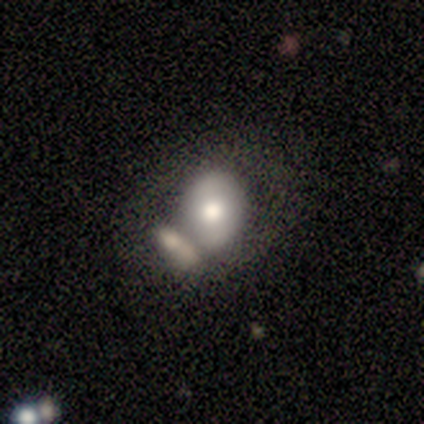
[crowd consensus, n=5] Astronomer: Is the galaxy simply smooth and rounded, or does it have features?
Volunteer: smooth — 80%.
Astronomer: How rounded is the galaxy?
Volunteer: in between — 50%.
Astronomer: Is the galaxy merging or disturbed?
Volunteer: none — 40%, tied with merger at 40%.